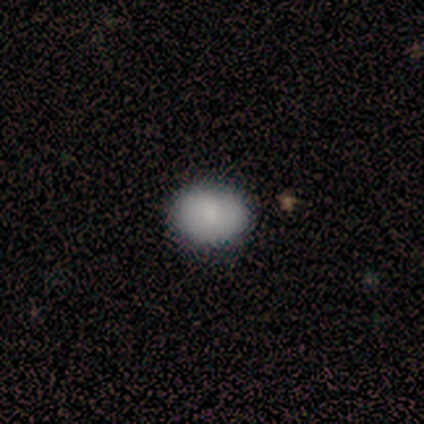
A smooth galaxy with no disk features (80%) that is round (75%).

Vote fractions:
- Smooth or featured? smooth: 80% / featured or disk: 20% / star or artifact: 0%
- How rounded? round: 75% / in between: 25% / cigar-shaped: 0%
- Merging? none: 100% / minor disturbance: 0% / major disturbance: 0% / merger: 0%